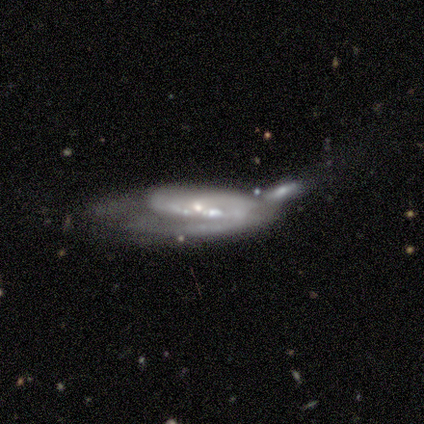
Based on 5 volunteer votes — This is clearly a featured or disk galaxy (100%). It is likely not viewed edge-on (60%). Bar: likely strong (67%). Spiral arm pattern: likely yes (67%). Spiral arm count: possibly 2 (50%, tied with can't tell). Spiral winding: possibly tight (50%, tied with medium). Central bulge: likely moderate (67%). Merging: marginally merger (40%).